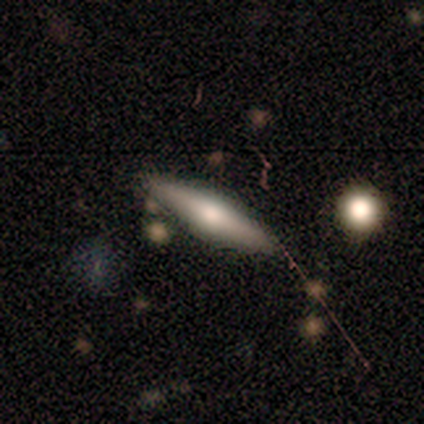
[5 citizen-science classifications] This is likely a smooth galaxy (60%). How rounded: clearly cigar-shaped (100%). Merging: clearly none (80%).